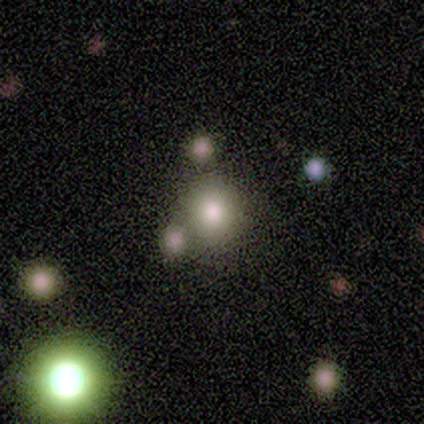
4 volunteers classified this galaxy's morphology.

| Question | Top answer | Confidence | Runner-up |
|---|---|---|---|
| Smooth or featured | featured or disk | 50% | smooth (25%) |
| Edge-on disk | no | 100% | — |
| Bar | weak | 50% | tied: no (50%) |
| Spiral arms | no | 100% | — |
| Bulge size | moderate | 100% | — |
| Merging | none | 67% | merger (33%) |